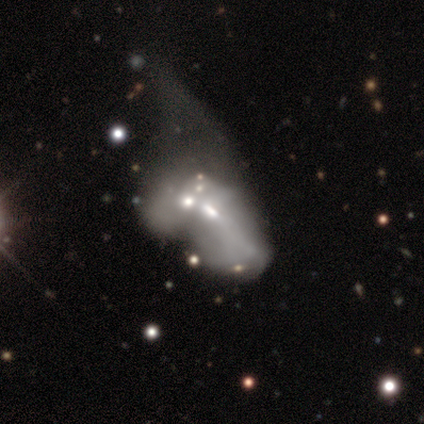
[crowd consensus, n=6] A featured or disk galaxy (50%) with no bar (100%), no spiral arms (100%) and a moderate central bulge (67%). Merging: merger (75%).